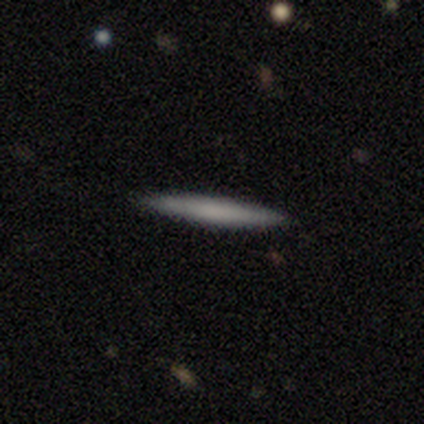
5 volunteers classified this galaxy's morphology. Smooth or featured? 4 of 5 (80%) said smooth. How rounded? 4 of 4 (100%) said cigar-shaped. Merging? 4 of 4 (100%) said none.